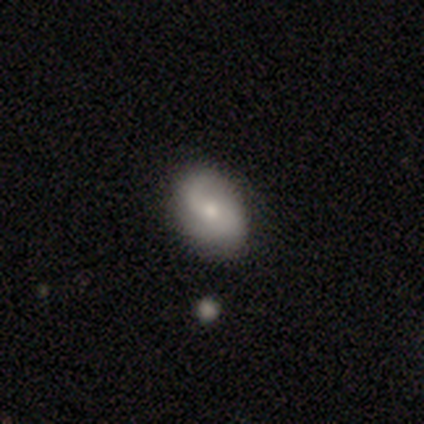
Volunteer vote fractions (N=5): A smooth galaxy with no disk features (60%) that is in between round and cigar-shaped (100%). Merging: none (80%).